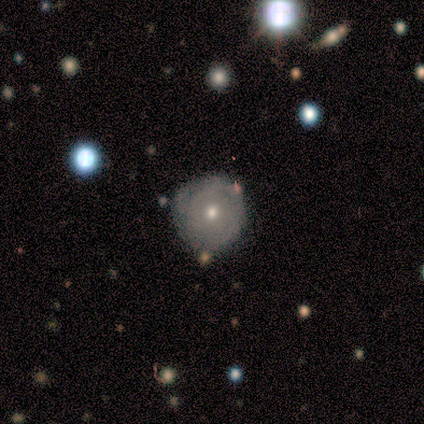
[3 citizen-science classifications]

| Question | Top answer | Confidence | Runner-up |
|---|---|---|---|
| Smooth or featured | smooth | 100% | — |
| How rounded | round | 100% | — |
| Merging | none | 100% | — |